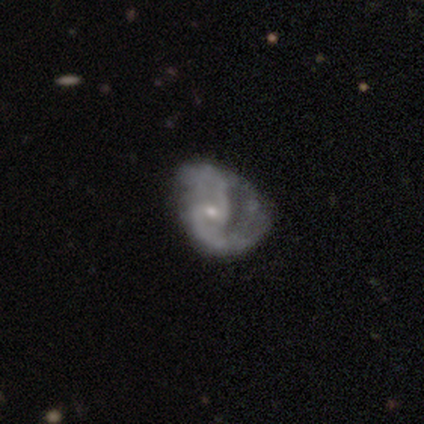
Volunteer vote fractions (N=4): Q: Smooth or featured?
A: featured or disk (75%); runner-up: smooth (25%)
Q: Edge-on disk?
A: no (100%)
Q: Bar?
A: weak (67%); runner-up: no (33%)
Q: Spiral arms?
A: yes (67%); runner-up: no (33%)
Q: Spiral winding?
A: medium (50%); tied with: loose (50%)
Q: Spiral arm count?
A: 1 (50%); tied with: 2 (50%)
Q: Bulge size?
A: small (100%)
Q: Merging?
A: none (75%); runner-up: major disturbance (25%)